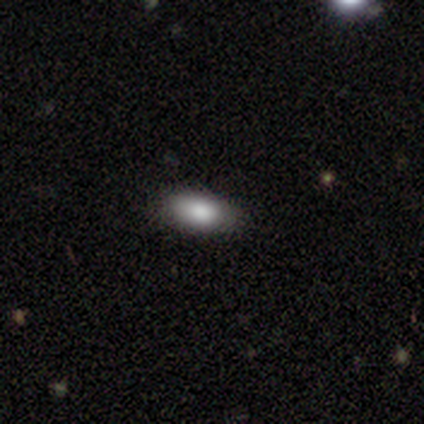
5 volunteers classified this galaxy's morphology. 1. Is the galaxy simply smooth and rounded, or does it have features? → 100% smooth, 0% featured or disk, 0% star or artifact.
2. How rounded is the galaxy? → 100% in between, 0% round, 0% cigar-shaped.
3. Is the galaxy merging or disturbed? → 80% none, 20% minor disturbance, 0% major disturbance, 0% merger.